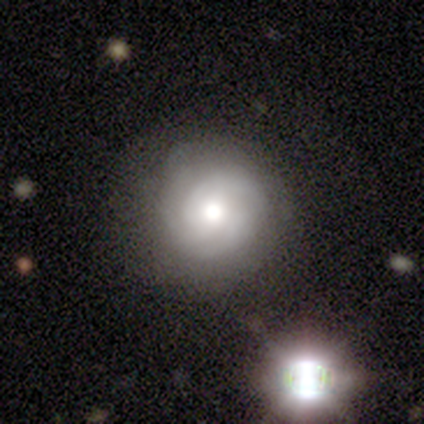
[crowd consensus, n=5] Q: Smooth or featured?
A: featured or disk (60%); runner-up: smooth (20%)
Q: Edge-on disk?
A: no (100%)
Q: Bar?
A: no (100%)
Q: Spiral arms?
A: yes (67%); runner-up: no (33%)
Q: Spiral winding?
A: tight (50%); tied with: medium (50%)
Q: Spiral arm count?
A: 3 (100%)
Q: Bulge size?
A: moderate (67%); runner-up: large (33%)
Q: Merging?
A: none (100%)